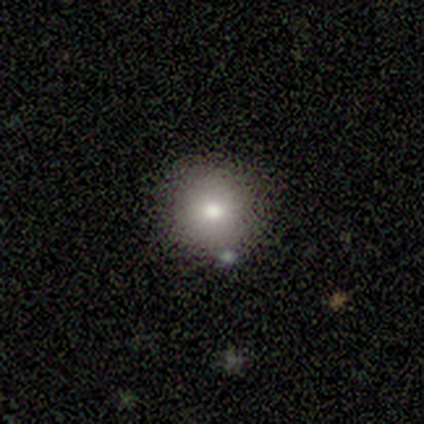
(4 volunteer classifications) Smooth or featured? smooth (100%)
How rounded? round (100%)
Merging? none (50%)